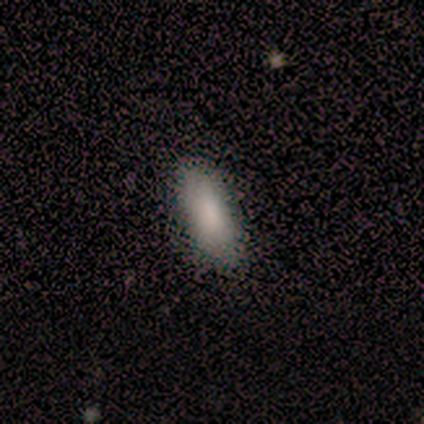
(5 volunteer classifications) Q: Smooth or featured?
A: smooth (100%)
Q: How rounded?
A: in between (60%); runner-up: cigar-shaped (40%)
Q: Merging?
A: none (100%)